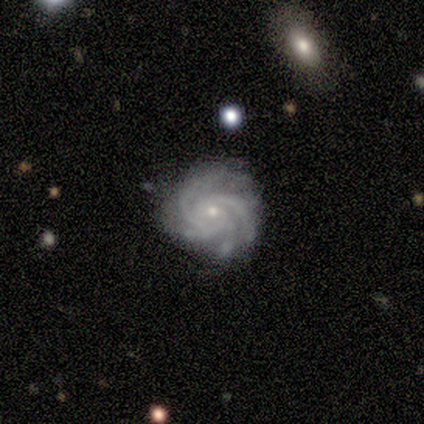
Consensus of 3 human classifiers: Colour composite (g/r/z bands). It shows a featured or disk galaxy (100%) with no bar (100%), 4 (67%) tight (100%) spiral arms (100%) and a small central bulge (67%). Merging: none (67%).